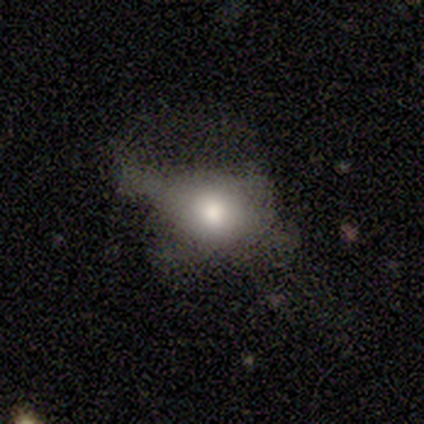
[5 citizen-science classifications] Smooth or featured? 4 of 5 (80%) said featured or disk. Edge-on disk? 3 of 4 (75%) said no. Bar? 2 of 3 (67%) said no. Spiral arms? 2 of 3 (67%) said no. Bulge size? 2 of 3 (67%) said moderate. Merging? 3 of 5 (60%) said none.